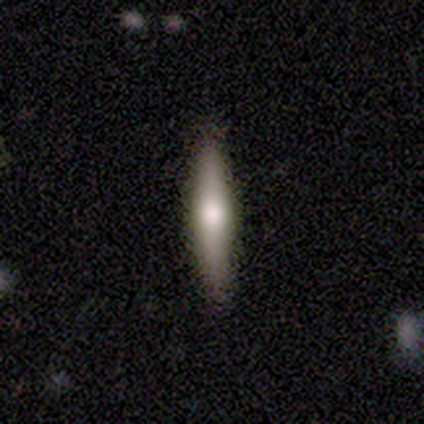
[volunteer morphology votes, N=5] This appears to be a smooth galaxy with no disk features (60%) that is cigar-shaped (100%). Merging: none (100%).